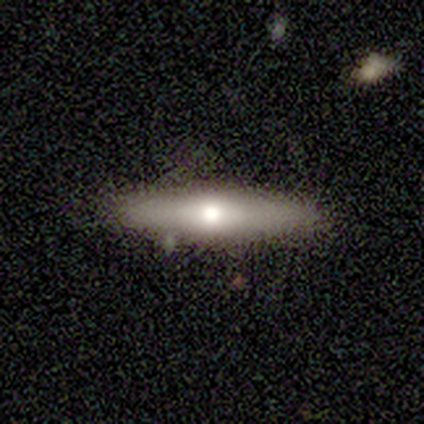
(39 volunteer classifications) Smooth or featured? 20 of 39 (51%) said featured or disk. Edge-on disk? 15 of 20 (75%) said yes. Edge-on bulge? 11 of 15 (73%) said rounded. Merging? 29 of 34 (85%) said none.